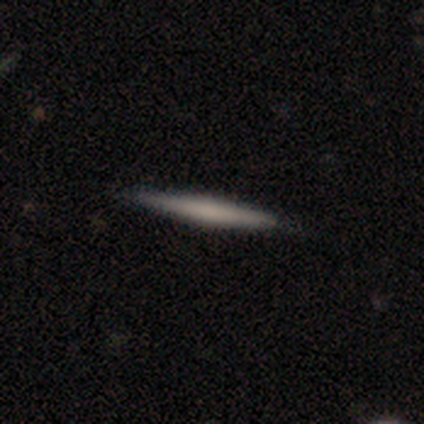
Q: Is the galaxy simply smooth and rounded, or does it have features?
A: featured or disk — 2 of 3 (67%).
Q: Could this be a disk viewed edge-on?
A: yes — 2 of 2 (100%).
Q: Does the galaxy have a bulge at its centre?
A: boxy — 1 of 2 (50%, tied with rounded).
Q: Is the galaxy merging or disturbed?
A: none — 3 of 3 (100%).